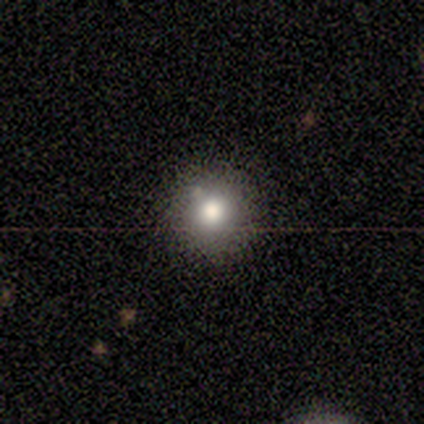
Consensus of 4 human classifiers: Overall: smooth (75%). How rounded: round (100%). Merging: none (75%).